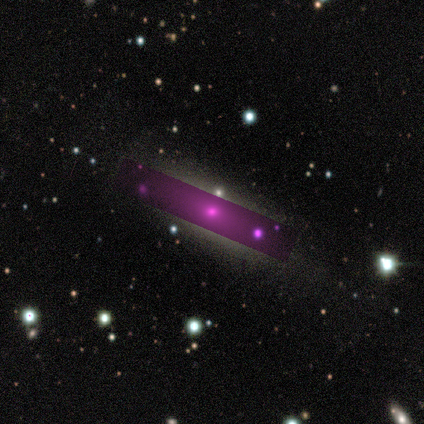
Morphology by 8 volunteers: type=smooth (38%, tied with star or artifact); roundness=round (33%, tied with in between and cigar-shaped); merging=none (60%).